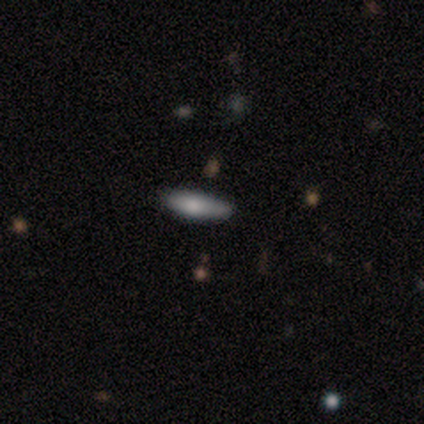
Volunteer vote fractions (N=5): A smooth galaxy with no disk features (100%) that is cigar-shaped (60%).

Vote fractions:
- Smooth or featured? smooth: 100% / featured or disk: 0% / star or artifact: 0%
- How rounded? cigar-shaped: 60% / in between: 40% / round: 0%
- Merging? none: 80% / minor disturbance: 20% / major disturbance: 0% / merger: 0%